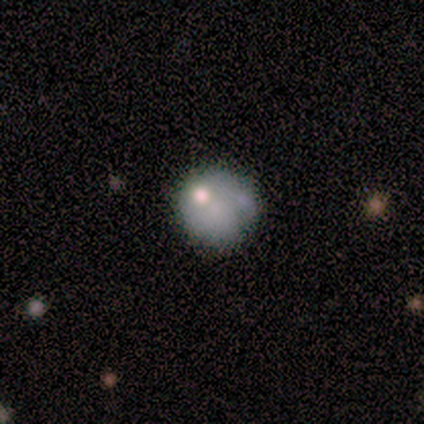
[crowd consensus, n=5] Volunteers were most divided on "merging": none: 60%, merger: 40%, minor disturbance: 0%, major disturbance: 0%. More confident: how rounded — round (100%); smooth or featured — smooth (80%).